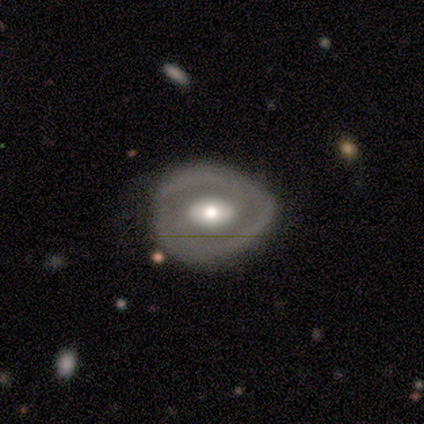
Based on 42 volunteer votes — featured or disk 71%, smooth 21%, star or artifact 7%. Down the decision tree: edge-on disk — no (97%); bar — no (59%); spiral arms — no (69%); bulge size — moderate (72%); merging — none (59%).